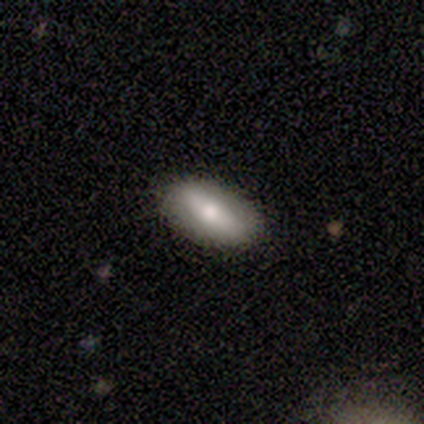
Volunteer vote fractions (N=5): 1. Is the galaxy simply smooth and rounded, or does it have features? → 80% smooth, 20% featured or disk, 0% star or artifact.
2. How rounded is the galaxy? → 75% in between, 25% cigar-shaped, 0% round.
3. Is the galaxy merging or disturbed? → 100% none, 0% minor disturbance, 0% major disturbance, 0% merger.